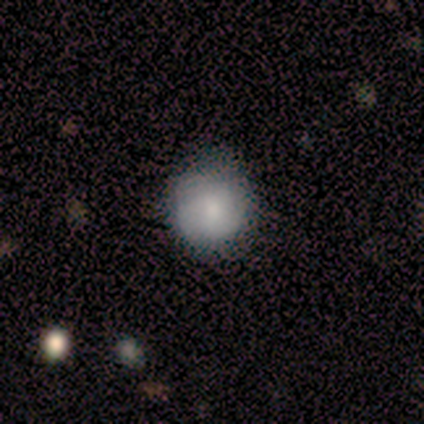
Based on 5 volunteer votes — Smooth or featured: smooth — 60% (featured or disk — 20%)
How rounded: round — 100%
Merging: none — 50% (tied with minor disturbance — 50%)